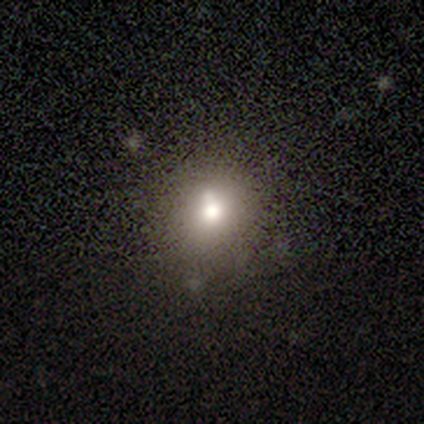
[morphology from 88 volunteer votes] Volunteers were most divided on "merging": none: 66%, minor disturbance: 20%, merger: 11%, major disturbance: 3%. More confident: how rounded — round (80%); smooth or featured — smooth (68%).